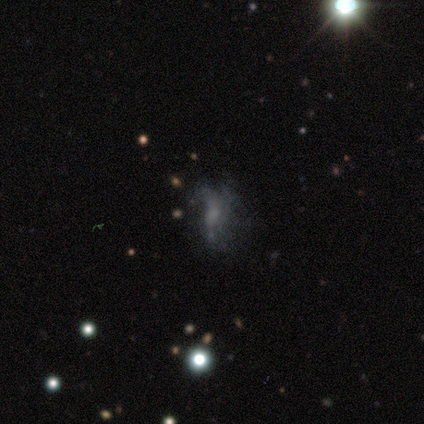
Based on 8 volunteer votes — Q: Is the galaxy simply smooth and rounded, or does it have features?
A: featured or disk — 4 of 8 (50%).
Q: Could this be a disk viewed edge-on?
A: no — 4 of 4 (100%).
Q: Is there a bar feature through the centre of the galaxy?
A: no — 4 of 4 (100%).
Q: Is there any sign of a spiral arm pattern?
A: no — 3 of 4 (75%).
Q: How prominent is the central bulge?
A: none — 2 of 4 (50%).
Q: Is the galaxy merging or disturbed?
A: none — 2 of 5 (40%, tied with major disturbance).